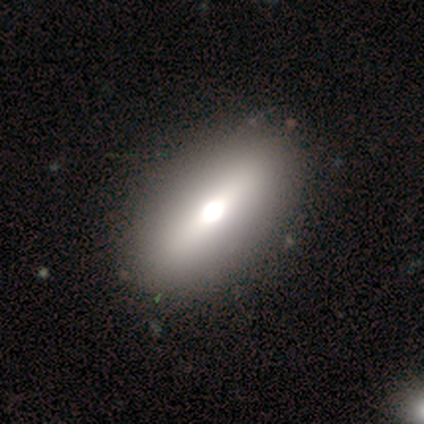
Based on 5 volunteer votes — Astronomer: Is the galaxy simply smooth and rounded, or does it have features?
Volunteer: smooth — 60% (runner-up: featured or disk, 40%).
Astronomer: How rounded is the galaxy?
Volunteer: cigar-shaped — 67%.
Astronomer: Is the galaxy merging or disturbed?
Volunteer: none — 100%.